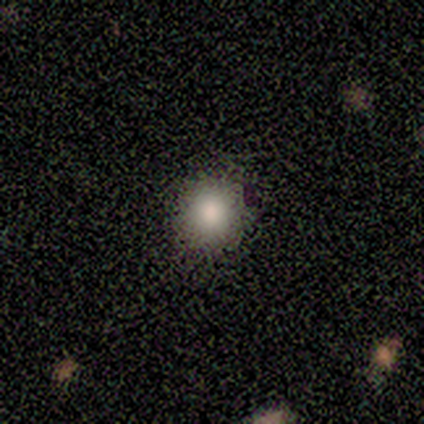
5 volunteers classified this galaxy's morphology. Smooth or featured?
  - smooth: 100% *
  - featured or disk: 0%
  - star or artifact: 0%
How rounded?
  - round: 80% *
  - in between: 20%
  - cigar-shaped: 0%
Merging?
  - none: 80% *
  - minor disturbance: 20%
  - major disturbance: 0%
  - merger: 0%